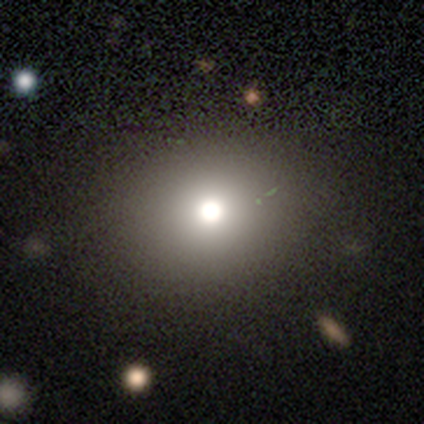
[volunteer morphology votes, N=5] This is marginally a smooth galaxy (40%, tied with star or artifact). How rounded: clearly in between (100%). Merging: clearly none (100%).